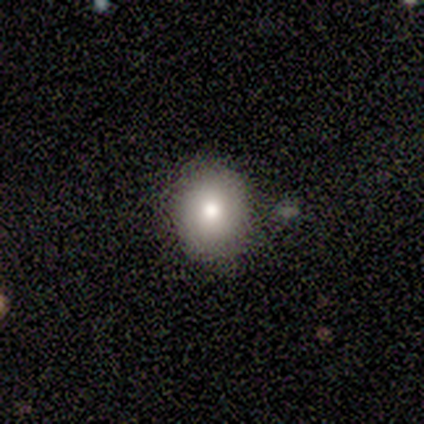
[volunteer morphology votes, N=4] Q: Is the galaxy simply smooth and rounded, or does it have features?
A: smooth — 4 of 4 (100%).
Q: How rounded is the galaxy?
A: round — 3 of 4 (75%).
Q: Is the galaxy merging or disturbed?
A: none — 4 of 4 (100%).